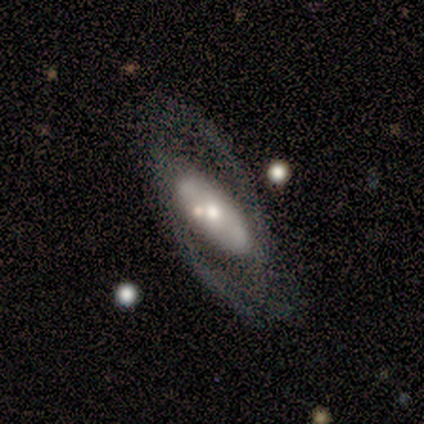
smooth_or_featured: featured or disk (p=1.00)
disk_edge_on: no (p=0.75) [alt: yes p=0.25]
bar: no (p=1.00)
has_spiral_arms: yes (p=0.67) [alt: no p=0.33]
spiral_winding: tight (p=0.50) [tied with: loose p=0.50]
spiral_arm_count: 2 (p=1.00)
bulge_size: moderate (p=1.00)
merging: none (p=0.50) [alt: minor disturbance p=0.25]